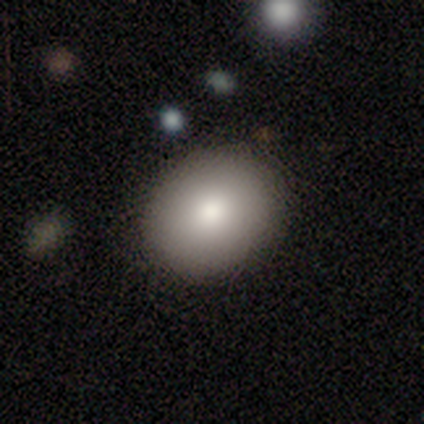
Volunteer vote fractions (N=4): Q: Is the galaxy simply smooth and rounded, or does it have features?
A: smooth — 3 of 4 (75%).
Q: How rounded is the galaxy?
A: round — 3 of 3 (100%).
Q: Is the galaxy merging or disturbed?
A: none — 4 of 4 (100%).